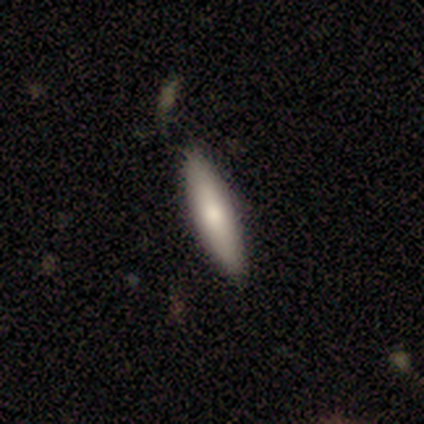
Smooth or featured: smooth — 60% (featured or disk — 40%)
How rounded: cigar-shaped — 100%
Merging: none — 80% (major disturbance — 20%)